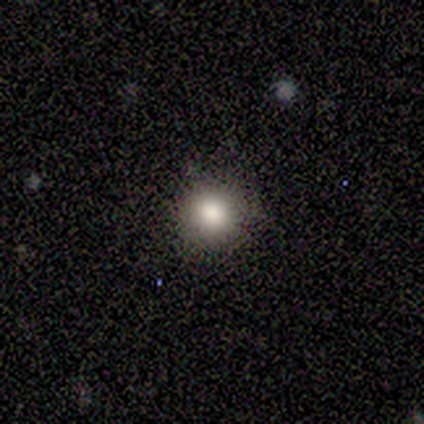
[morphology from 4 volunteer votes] Smooth or featured? smooth (100%)
How rounded? round (100%)
Merging? none (75%)